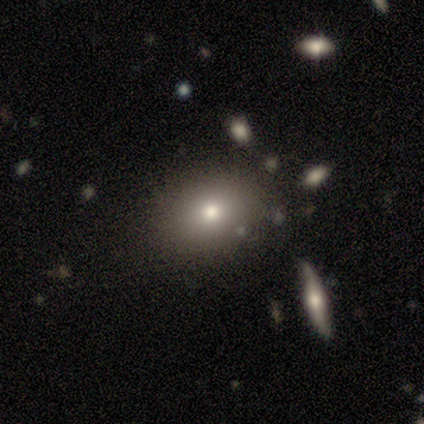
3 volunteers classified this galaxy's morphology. type=star or artifact (67%).